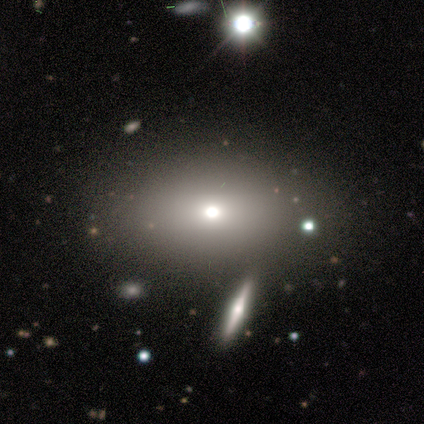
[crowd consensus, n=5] Q: Smooth or featured?
A: smooth (60%); runner-up: featured or disk (20%)
Q: How rounded?
A: in between (100%)
Q: Merging?
A: none (75%); runner-up: major disturbance (25%)